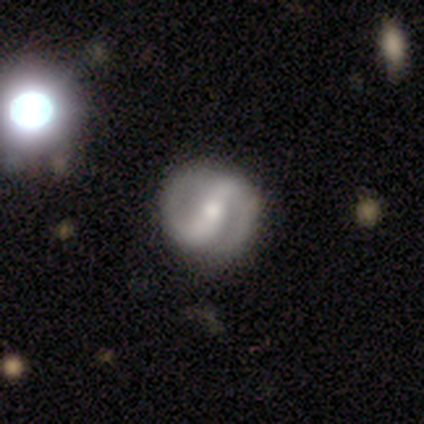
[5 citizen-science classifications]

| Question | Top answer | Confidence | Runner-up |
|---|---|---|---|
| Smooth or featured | featured or disk | 80% | star or artifact (20%) |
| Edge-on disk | no | 75% | yes (25%) |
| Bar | strong | 67% | no (33%) |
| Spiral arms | yes | 100% | — |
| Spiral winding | tight | 33% | tied: medium (33%), loose (33%) |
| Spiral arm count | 2 | 100% | — |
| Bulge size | small | 67% | moderate (33%) |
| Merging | none | 75% | merger (25%) |